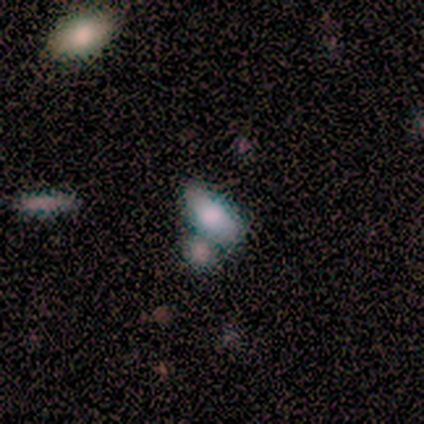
Smooth or featured? 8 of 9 (89%) said smooth. How rounded? 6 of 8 (75%) said in between. Merging? 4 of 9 (44%, tied with merger) said none.